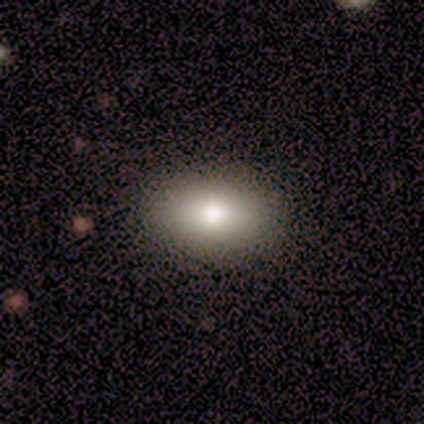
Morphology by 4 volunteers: This appears to be a smooth galaxy with no disk features (75%) that is in between round and cigar-shaped (100%). Merging: none (100%).